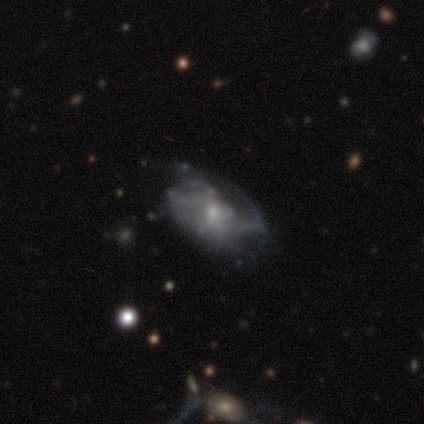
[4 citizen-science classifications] featured or disk 75%, smooth 25%, star or artifact 0%. Down the decision tree: edge-on disk — no (100%); bar — weak (67%); spiral arms — yes (100%); spiral arm count — 2 (67%); spiral winding — medium (67%); bulge size — small (100%); merging — none (50%, tied with minor disturbance).